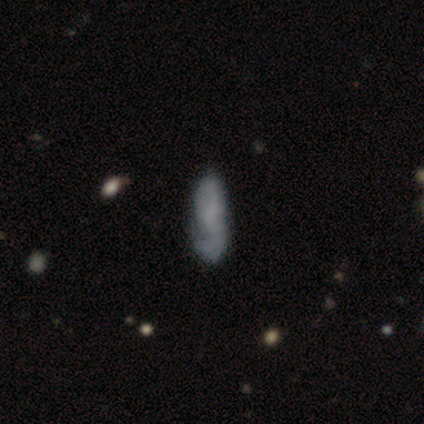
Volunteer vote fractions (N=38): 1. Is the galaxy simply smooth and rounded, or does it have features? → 53% smooth, 42% featured or disk, 5% star or artifact.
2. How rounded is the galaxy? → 65% cigar-shaped, 35% in between, 0% round.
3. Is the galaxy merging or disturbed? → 47% none, 31% minor disturbance, 11% major disturbance, 11% merger.